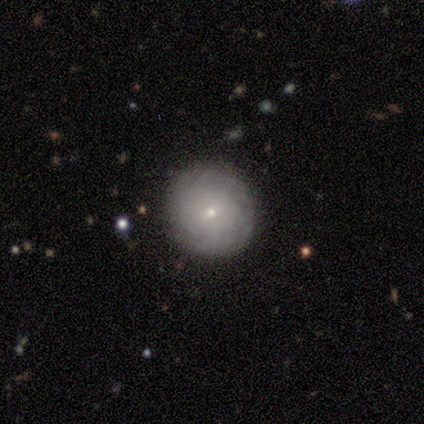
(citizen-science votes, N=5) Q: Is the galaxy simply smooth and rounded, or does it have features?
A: smooth — 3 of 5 (60%).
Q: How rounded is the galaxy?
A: round — 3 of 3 (100%).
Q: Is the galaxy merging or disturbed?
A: none — 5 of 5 (100%).